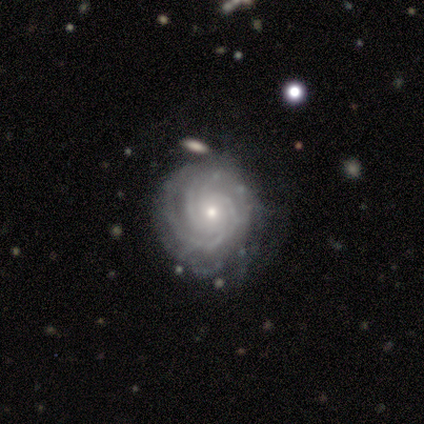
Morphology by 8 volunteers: type=featured or disk (88%); edge-on=no (100%); bar=no (86%); spiral arms=yes (100%); winding=tight (86%); arm count=4 (43%); bulge=small (57%); merging=none (71%).